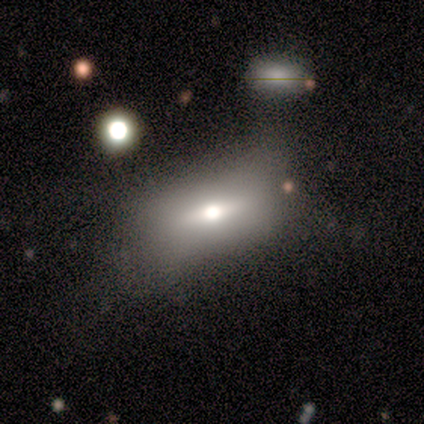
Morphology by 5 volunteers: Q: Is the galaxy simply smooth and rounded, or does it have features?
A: star or artifact — 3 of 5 (60%).